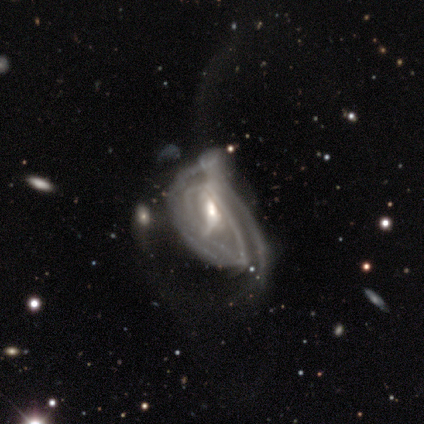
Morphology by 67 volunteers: A featured or disk galaxy (84%) with a weak bar (41%), tight (54%) spiral arms (72%) and a moderate central bulge (65%).

Vote fractions:
- Smooth or featured? featured or disk: 84% / star or artifact: 9% / smooth: 7%
- Edge-on disk? no: 96% / yes: 4%
- Bar? weak: 41% / no: 35% / strong: 24%
- Spiral arms? yes: 72% / no: 28%
- Spiral winding? tight: 54% / medium: 26% / loose: 21%
- Spiral arm count? can't tell: 51% / 2: 26% / 3: 10% / 4: 8% / 1: 5% / more than 4: 0%
- Bulge size? moderate: 65% / small: 22% / large: 9% / dominant: 2% / none: 2%
- Merging? major disturbance: 46% / minor disturbance: 8% / merger: 8% / none: 7%